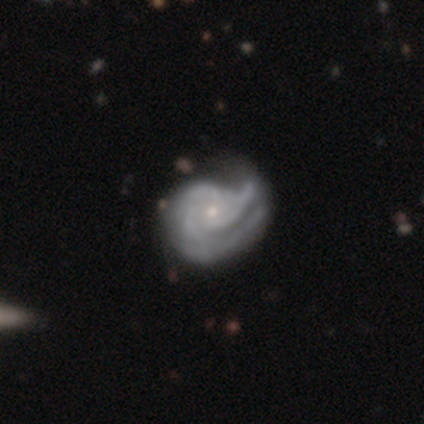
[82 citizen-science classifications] Smooth or featured?
  - featured or disk: 90% *
  - smooth: 9%
  - star or artifact: 1%
Edge-on disk?
  - no: 100% *
  - yes: 0%
Bar?
  - no: 85% *
  - weak: 12%
  - strong: 3%
Spiral arms?
  - yes: 97% *
  - no: 3%
Spiral winding?
  - tight: 65% *
  - medium: 25%
  - loose: 10%
Spiral arm count?
  - 2: 36% * (tied)
  - 3: 36% * (tied)
  - 1: 12%
  - can't tell: 12%
  - 4: 3%
  - more than 4: 0%
Bulge size?
  - small: 82% *
  - moderate: 14%
  - none: 4%
  - dominant: 0%
  - large: 0%
Merging?
  - none: 19% *
  - major disturbance: 17%
  - minor disturbance: 16%
  - merger: 1%